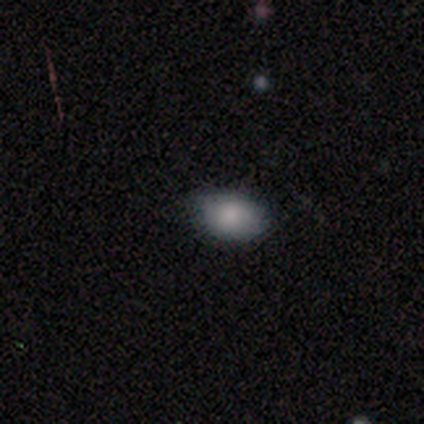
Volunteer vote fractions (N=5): Smooth or featured? smooth (80%)
How rounded? in between (100%)
Merging? none (80%)